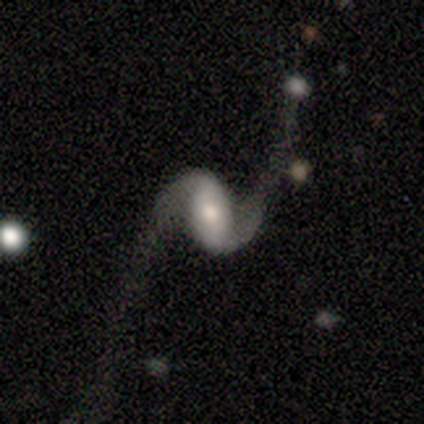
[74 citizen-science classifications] Smooth or featured? featured or disk (85%)
Edge-on disk? no (97%)
Bar? weak (44%)
Spiral arms? yes (98%)
Spiral winding? loose (87%)
Spiral arm count? 2 (98%)
Bulge size? moderate (59%)
Merging? none (57%)